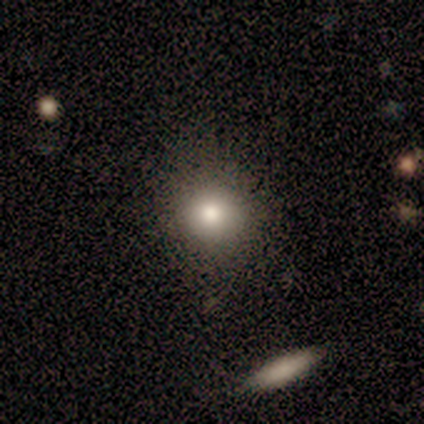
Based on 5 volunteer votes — smooth-or-featured: smooth: 60% | featured or disk: 20% | star or artifact: 20%
  how-rounded: round: 100% | in between: 0% | cigar-shaped: 0%
  merging: none: 75% | major disturbance: 25% | minor disturbance: 0% | merger: 0%